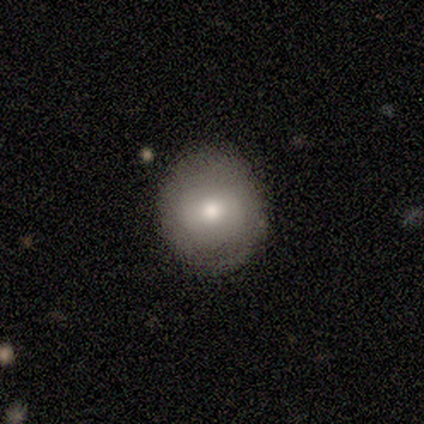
A smooth galaxy with no disk features (86%) that is round (100%). Merging: none (100%).